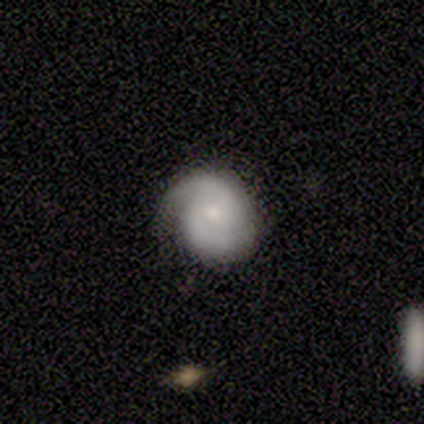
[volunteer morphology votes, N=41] A featured or disk galaxy (80%) with no bar (66%), 2 (83%) medium (43%) spiral arms (94%) and a small central bulge (53%). Merging: none (77%).